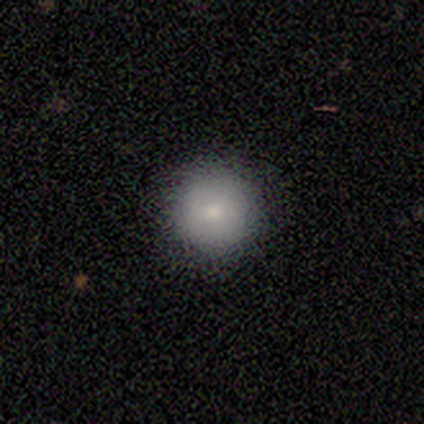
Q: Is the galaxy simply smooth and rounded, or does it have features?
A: smooth — 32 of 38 (84%).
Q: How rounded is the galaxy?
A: round — 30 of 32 (94%).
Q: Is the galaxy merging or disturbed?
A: none — 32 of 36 (89%).